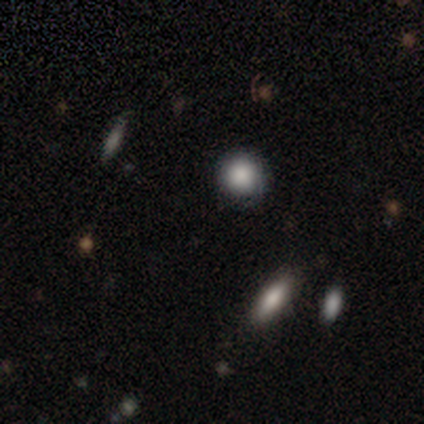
A smooth galaxy with no disk features (80%) that is round (100%).

Vote fractions:
- Smooth or featured? smooth: 80% / featured or disk: 20% / star or artifact: 0%
- How rounded? round: 100% / in between: 0% / cigar-shaped: 0%
- Merging? none: 80% / minor disturbance: 20% / major disturbance: 0% / merger: 0%